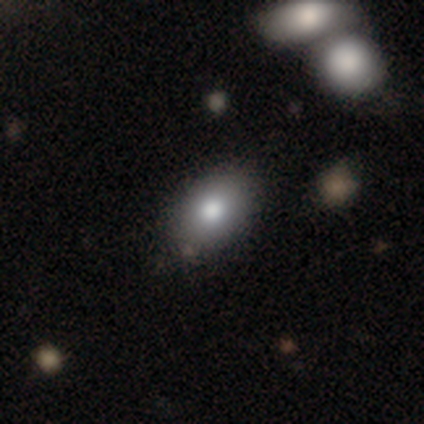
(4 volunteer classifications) Volunteers were most divided on "how rounded": in between: 75%, round: 25%, cigar-shaped: 0%. More confident: smooth or featured — smooth (100%); merging — none (100%).